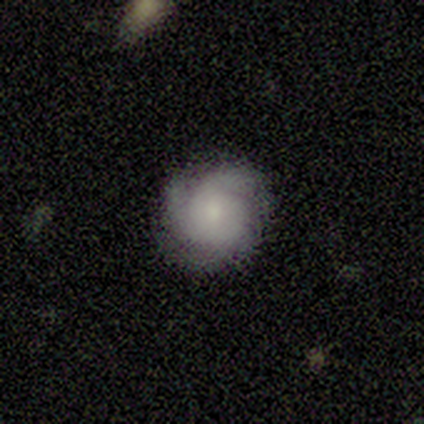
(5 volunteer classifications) Q: Smooth or featured?
A: featured or disk (100%)
Q: Edge-on disk?
A: no (100%)
Q: Bar?
A: no (80%); runner-up: weak (20%)
Q: Spiral arms?
A: yes (100%)
Q: Spiral winding?
A: tight (40%); tied with: medium (40%)
Q: Spiral arm count?
A: 4 (40%); tied with: can't tell (40%)
Q: Bulge size?
A: moderate (60%); runner-up: small (20%)
Q: Merging?
A: none (100%)